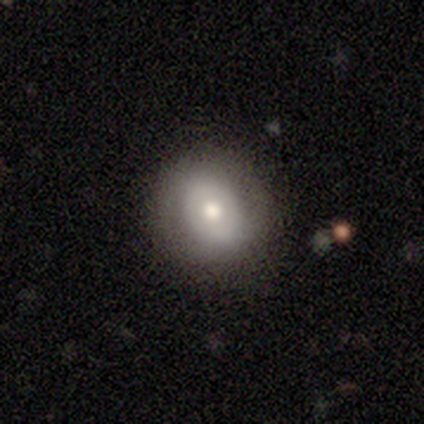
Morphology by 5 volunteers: smooth 60%, featured or disk 40%, star or artifact 0%. Down the decision tree: how rounded — in between (67%); merging — none (80%).